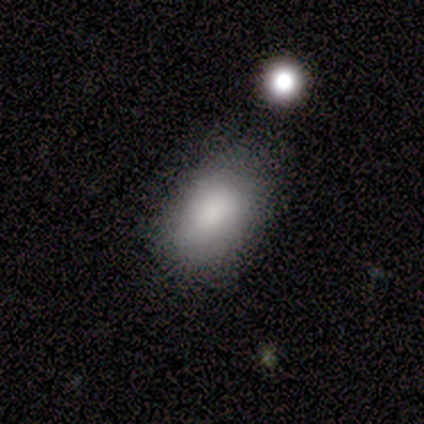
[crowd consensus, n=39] Smooth or featured? 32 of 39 (82%) said smooth. How rounded? 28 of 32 (88%) said in between. Merging? 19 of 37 (51%) said none.